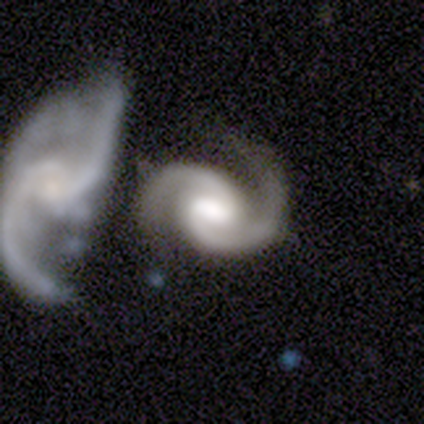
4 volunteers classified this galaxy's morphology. Q: Smooth or featured?
A: featured or disk (100%)
Q: Edge-on disk?
A: no (100%)
Q: Bar?
A: strong (50%); tied with: no (50%)
Q: Spiral arms?
A: yes (100%)
Q: Spiral winding?
A: tight (75%); runner-up: medium (25%)
Q: Spiral arm count?
A: 2 (100%)
Q: Bulge size?
A: moderate (50%); runner-up: large (25%)
Q: Merging?
A: minor disturbance (50%); tied with: merger (50%)